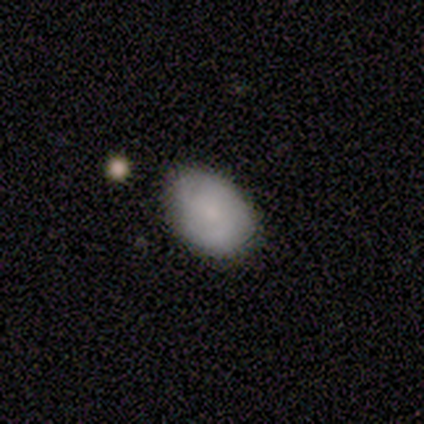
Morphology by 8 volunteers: Q: Smooth or featured?
A: smooth (62%); runner-up: featured or disk (25%)
Q: How rounded?
A: in between (80%); runner-up: cigar-shaped (20%)
Q: Merging?
A: none (57%); runner-up: minor disturbance (43%)